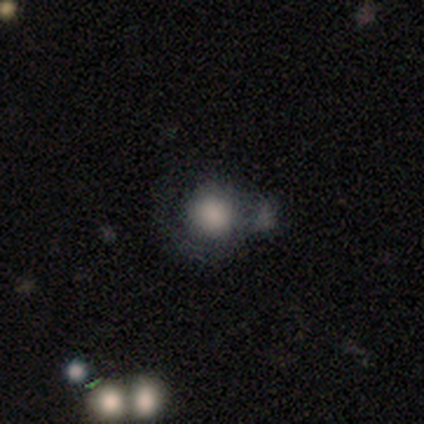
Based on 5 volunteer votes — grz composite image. It shows a smooth galaxy with no disk features (80%) that is round (100%). Merging: merger (60%).